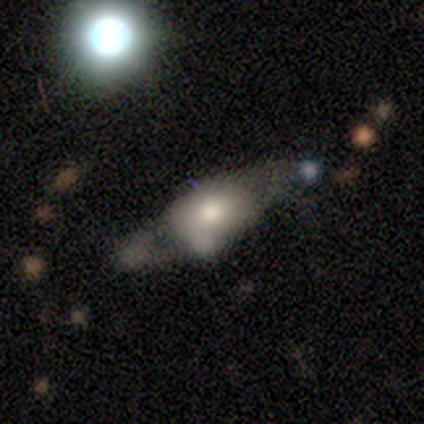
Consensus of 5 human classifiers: A featured or disk galaxy (80%) with no bar (75%), no spiral arms (75%) and a large central bulge (50%).

Vote fractions:
- Smooth or featured? featured or disk: 80% / smooth: 20% / star or artifact: 0%
- Edge-on disk? no: 100% / yes: 0%
- Bar? no: 75% / weak: 25% / strong: 0%
- Spiral arms? no: 75% / yes: 25%
- Bulge size? large: 50% / dominant: 25% / moderate: 25% / small: 0% / none: 0%
- Merging? none: 60% / minor disturbance: 40% / major disturbance: 0% / merger: 0%